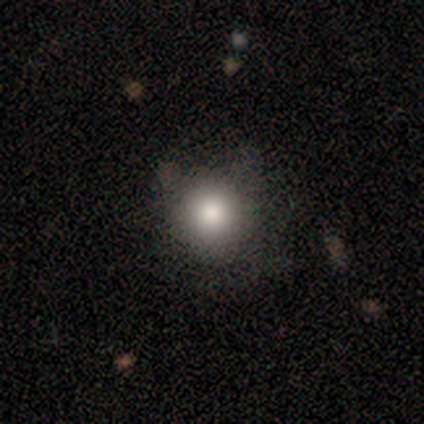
Smooth or featured: smooth — 75% (featured or disk — 25%)
How rounded: round — 100%
Merging: none — 100%